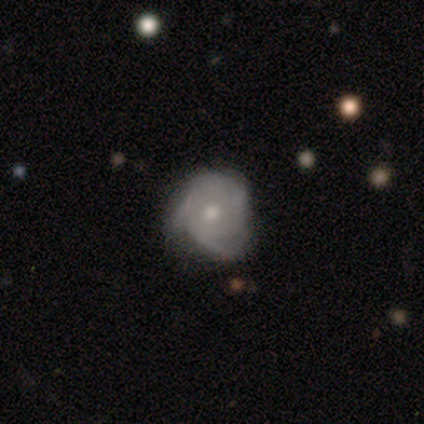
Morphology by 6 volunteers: featured or disk 83%, smooth 17%, star or artifact 0%. Down the decision tree: edge-on disk — no (100%); bar — no (100%); spiral arms — yes (100%); spiral arm count — can't tell (60%); spiral winding — tight (100%); bulge size — small (60%); merging — minor disturbance (50%).